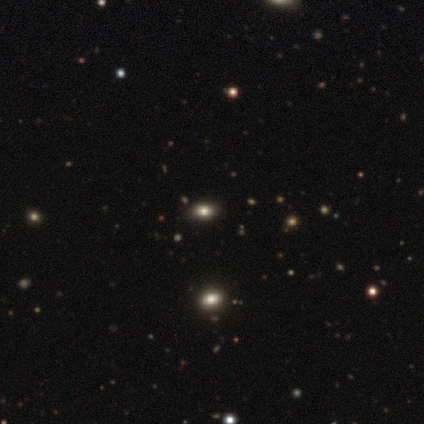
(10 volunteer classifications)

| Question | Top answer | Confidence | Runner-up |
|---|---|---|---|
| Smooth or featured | smooth | 60% | star or artifact (40%) |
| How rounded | in between | 100% | — |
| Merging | none | 100% | — |